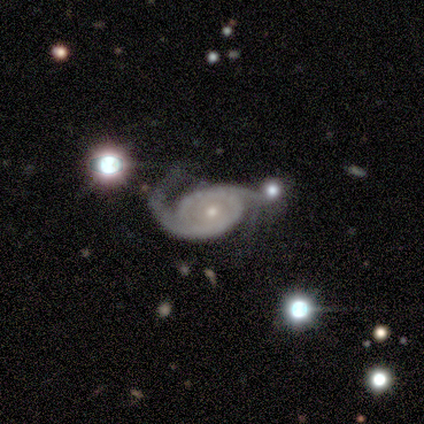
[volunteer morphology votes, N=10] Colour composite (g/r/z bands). It shows a featured or disk galaxy (90%) with no bar (78%), 2 (89%) tight (33%, tied with medium and loose) spiral arms (100%) and a small central bulge (100%). Merging: none (44%).